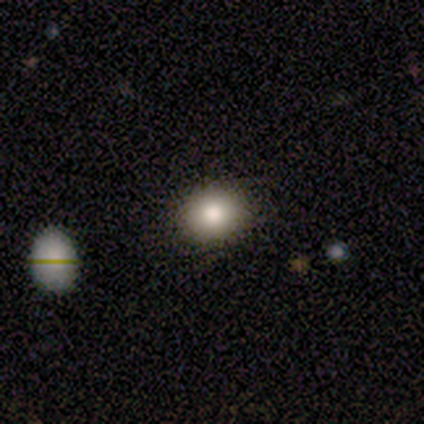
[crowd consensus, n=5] Smooth or featured?
  - smooth: 80% *
  - star or artifact: 20%
  - featured or disk: 0%
How rounded?
  - in between: 100% *
  - round: 0%
  - cigar-shaped: 0%
Merging?
  - none: 100% *
  - minor disturbance: 0%
  - major disturbance: 0%
  - merger: 0%